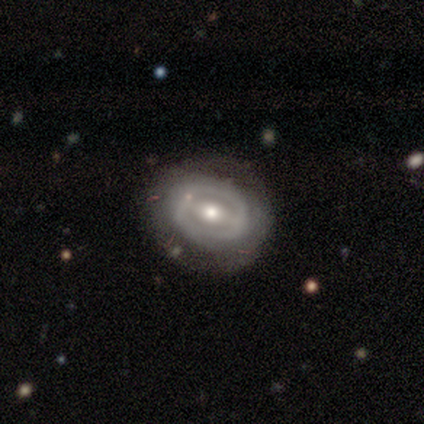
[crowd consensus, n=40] A featured or disk galaxy (70%) with a weak bar (61%), no spiral arms (71%) and a moderate central bulge (82%).

Vote fractions:
- Smooth or featured? featured or disk: 70% / smooth: 30% / star or artifact: 0%
- Edge-on disk? no: 100% / yes: 0%
- Bar? weak: 61% / strong: 32% / no: 7%
- Spiral arms? no: 71% / yes: 29%
- Bulge size? moderate: 82% / small: 14% / large: 4% / dominant: 0% / none: 0%
- Merging? none: 75% / minor disturbance: 15% / major disturbance: 10% / merger: 0%